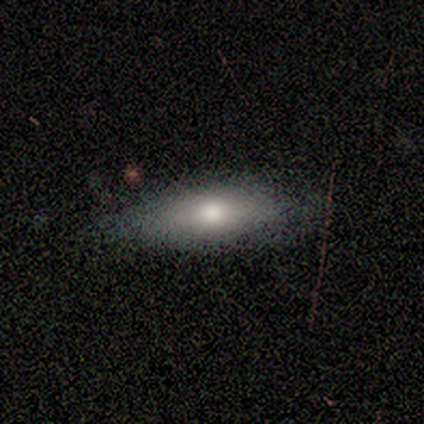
Smooth or featured? smooth (88%)
How rounded? in between (71%)
Merging? none (86%)